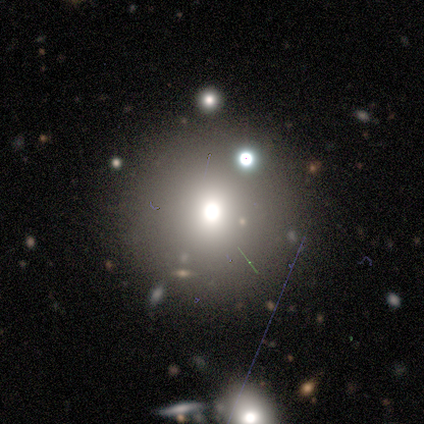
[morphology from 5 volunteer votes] smooth-or-featured: featured or disk: 60% | smooth: 40% | star or artifact: 0%
  disk-edge-on: no: 100% | yes: 0%
    bar: no: 100% | strong: 0% | weak: 0%
    has-spiral-arms: no: 100% | yes: 0%
    bulge-size: moderate: 67% | small: 33% | dominant: 0% | large: 0% | none: 0%
  merging: none: 60% | major disturbance: 20% | merger: 20% | minor disturbance: 0%